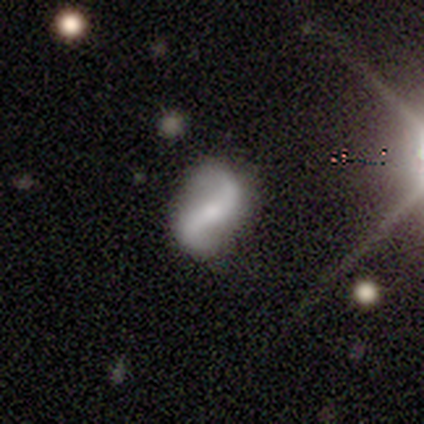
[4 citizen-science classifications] Q: Smooth or featured?
A: featured or disk (75%); runner-up: smooth (25%)
Q: Edge-on disk?
A: no (100%)
Q: Bar?
A: strong (67%); runner-up: no (33%)
Q: Spiral arms?
A: yes (67%); runner-up: no (33%)
Q: Spiral winding?
A: loose (100%)
Q: Spiral arm count?
A: 2 (100%)
Q: Bulge size?
A: moderate (100%)
Q: Merging?
A: none (75%); runner-up: minor disturbance (25%)